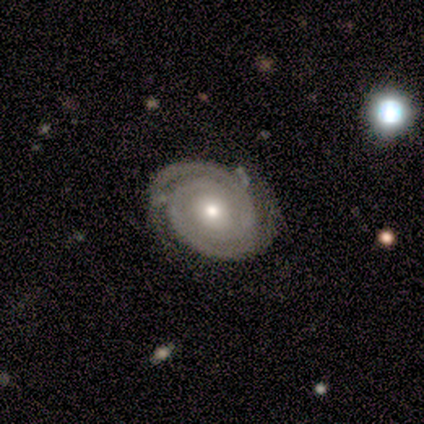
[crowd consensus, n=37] Smooth or featured?
  - featured or disk: 89% *
  - smooth: 8%
  - star or artifact: 3%
Edge-on disk?
  - no: 100% *
  - yes: 0%
Bar?
  - no: 64% *
  - weak: 24%
  - strong: 12%
Spiral arms?
  - yes: 100% *
  - no: 0%
Spiral winding?
  - tight: 94% *
  - loose: 6%
  - medium: 0%
Spiral arm count?
  - 2: 91% *
  - 1: 3%
  - more than 4: 3%
  - can't tell: 3%
  - 3: 0%
  - 4: 0%
Bulge size?
  - moderate: 48% *
  - small: 39%
  - large: 6%
  - dominant: 3%
  - none: 3%
Merging?
  - none: 81% *
  - minor disturbance: 11%
  - major disturbance: 6%
  - merger: 3%